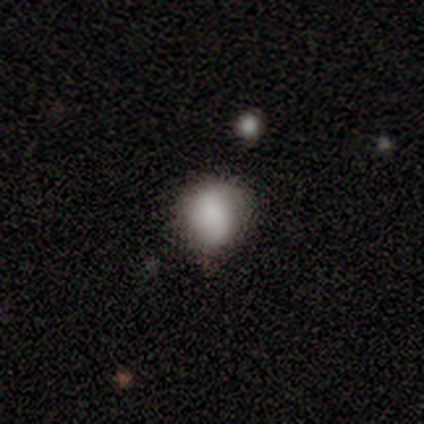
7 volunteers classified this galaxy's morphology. A smooth galaxy with no disk features (57%) that is round (75%). Merging: none (50%, tied with minor disturbance).